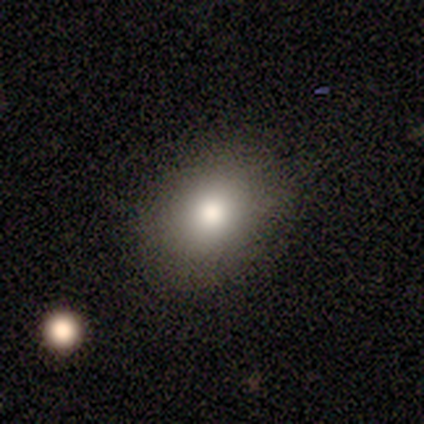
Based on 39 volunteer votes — smooth-or-featured: smooth: 77% | star or artifact: 15% | featured or disk: 8%
  how-rounded: in between: 60% | round: 40% | cigar-shaped: 0%
  merging: none: 79% | minor disturbance: 15% | major disturbance: 6% | merger: 0%